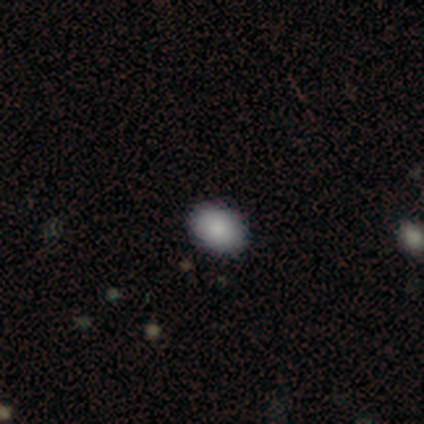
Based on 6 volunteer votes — This appears to be a smooth galaxy with no disk features (83%) that is in between round and cigar-shaped (100%). Merging: none (100%).